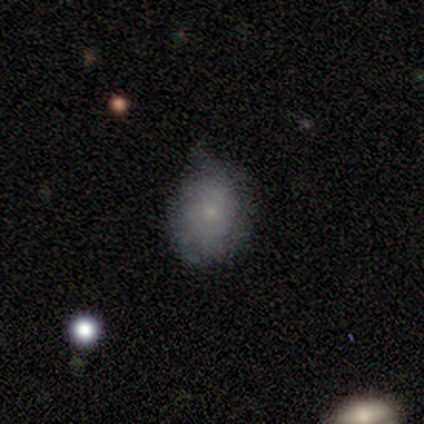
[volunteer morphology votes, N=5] smooth-or-featured: smooth: 80% | featured or disk: 20% | star or artifact: 0%
  how-rounded: round: 50% (tied) | in between: 50% (tied) | cigar-shaped: 0%
  merging: minor disturbance: 60% | none: 40% | major disturbance: 0% | merger: 0%